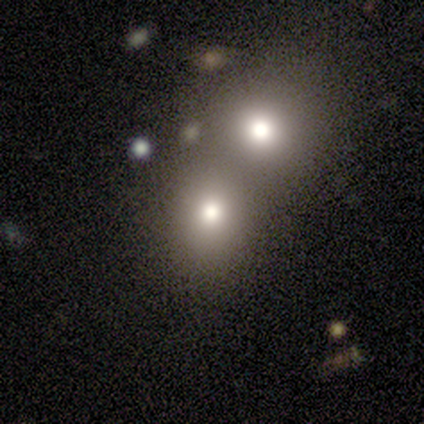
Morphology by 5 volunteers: A smooth galaxy with no disk features (80%) that is round (100%).

Vote fractions:
- Smooth or featured? smooth: 80% / featured or disk: 20% / star or artifact: 0%
- How rounded? round: 100% / in between: 0% / cigar-shaped: 0%
- Merging? merger: 80% / none: 20% / minor disturbance: 0% / major disturbance: 0%